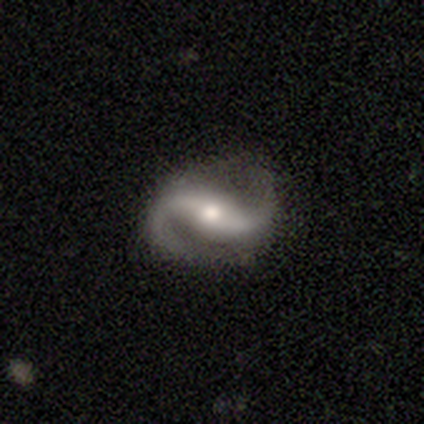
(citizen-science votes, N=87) This is clearly a featured or disk galaxy (95%). It is clearly not viewed edge-on (96%). Bar: possibly strong (51%). Spiral arm pattern: clearly yes (99%). Spiral arm count: clearly 2 (96%). Spiral winding: possibly medium (49%). Central bulge: likely moderate (62%). Merging: clearly none (86%).